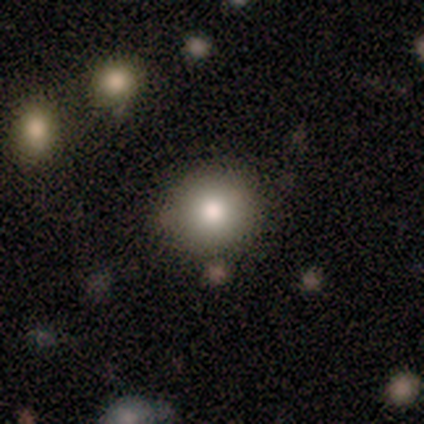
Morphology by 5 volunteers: Smooth or featured? 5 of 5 (100%) said smooth. How rounded? 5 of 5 (100%) said round. Merging? 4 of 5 (80%) said none.